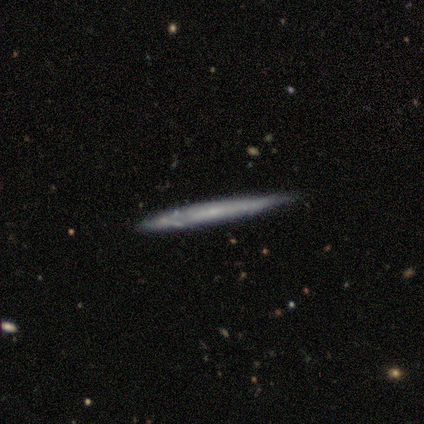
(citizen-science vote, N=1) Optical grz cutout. It shows a featured or disk galaxy (100%) viewed edge-on (100%) with no central bulge (100%). Merging: none (100%).